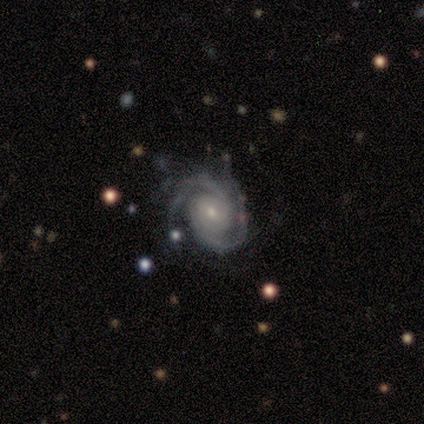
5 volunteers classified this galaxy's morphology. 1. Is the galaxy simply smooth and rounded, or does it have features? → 100% featured or disk, 0% smooth, 0% star or artifact.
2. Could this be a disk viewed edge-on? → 100% no, 0% yes.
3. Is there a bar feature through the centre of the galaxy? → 80% no, 20% strong, 0% weak.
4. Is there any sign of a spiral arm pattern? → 100% yes, 0% no.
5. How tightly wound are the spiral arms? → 80% tight, 20% medium, 0% loose.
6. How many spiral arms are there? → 20% 2 (tied), 20% 3 (tied), 20% 4 (tied), 20% more than 4 (tied), 20% can't tell (tied), 0% 1.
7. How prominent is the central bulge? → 60% small, 20% dominant, 20% moderate, 0% large, 0% none.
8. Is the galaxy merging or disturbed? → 40% none (tied), 40% major disturbance (tied), 20% minor disturbance, 0% merger.